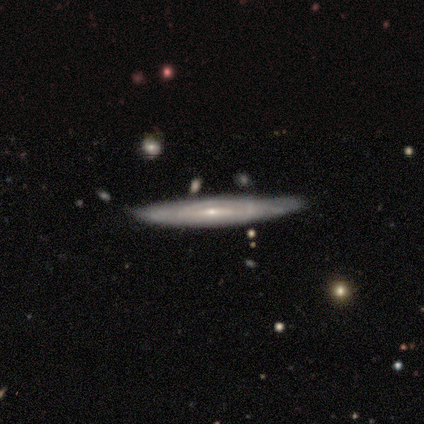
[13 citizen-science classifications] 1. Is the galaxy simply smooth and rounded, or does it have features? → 85% featured or disk, 15% smooth, 0% star or artifact.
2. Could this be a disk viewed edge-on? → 55% yes, 45% no.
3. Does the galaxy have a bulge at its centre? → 67% rounded, 33% none, 0% boxy.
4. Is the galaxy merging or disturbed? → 77% none, 23% minor disturbance, 0% major disturbance, 0% merger.